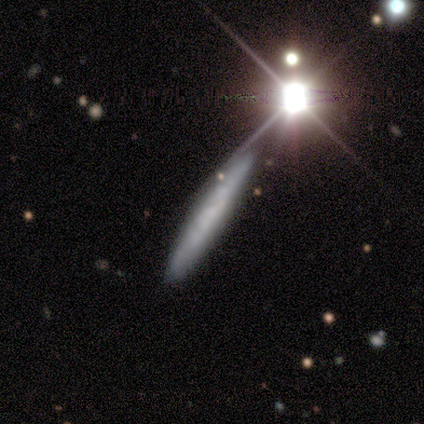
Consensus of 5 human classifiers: A smooth galaxy with no disk features (40%, tied with featured or disk) that is cigar-shaped (100%).

Vote fractions:
- Smooth or featured? smooth: 40% (tied) / featured or disk: 40% (tied) / star or artifact: 20%
- How rounded? cigar-shaped: 100% / round: 0% / in between: 0%
- Merging? none: 100% / minor disturbance: 0% / major disturbance: 0% / merger: 0%